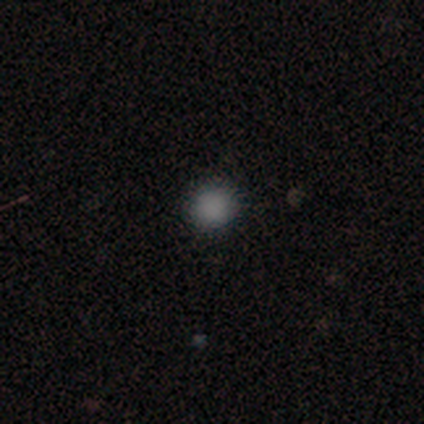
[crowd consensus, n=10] This is likely a smooth galaxy (60%). How rounded: clearly round (100%). Merging: clearly none (86%).